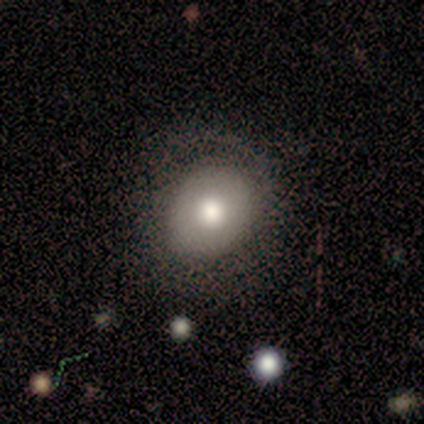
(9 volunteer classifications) Morphology: type=smooth (100%); roundness=in between (56%); merging=none (56%).